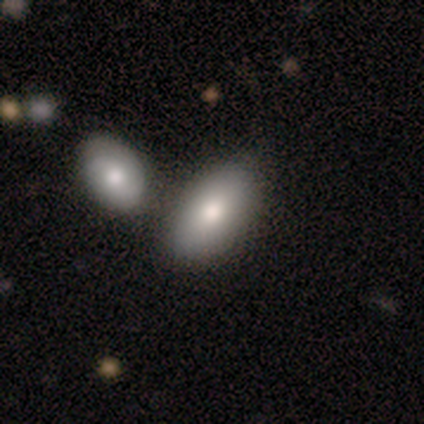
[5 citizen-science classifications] Q: Smooth or featured?
A: smooth (80%); runner-up: featured or disk (20%)
Q: How rounded?
A: in between (100%)
Q: Merging?
A: none (80%); runner-up: merger (20%)